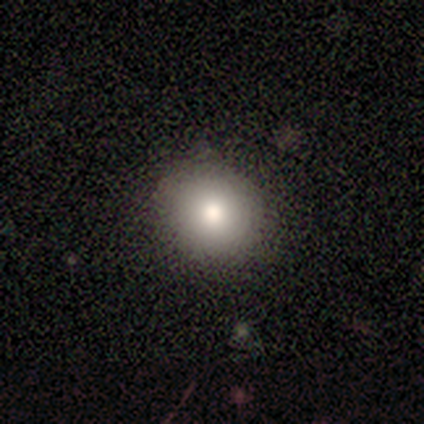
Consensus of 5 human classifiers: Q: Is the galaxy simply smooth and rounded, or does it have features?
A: smooth — 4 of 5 (80%).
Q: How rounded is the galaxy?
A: round — 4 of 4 (100%).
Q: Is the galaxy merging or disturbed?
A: none — 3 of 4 (75%).